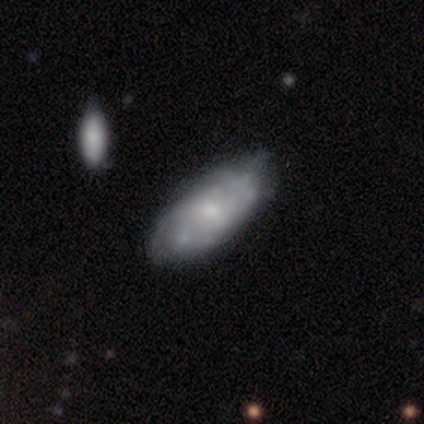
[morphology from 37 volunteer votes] Q: Smooth or featured?
A: featured or disk (57%); runner-up: smooth (43%)
Q: Edge-on disk?
A: no (86%); runner-up: yes (14%)
Q: Bar?
A: no (72%); runner-up: weak (28%)
Q: Spiral arms?
A: yes (61%); runner-up: no (39%)
Q: Spiral winding?
A: tight (45%); runner-up: medium (36%)
Q: Spiral arm count?
A: can't tell (64%); runner-up: 2 (18%)
Q: Bulge size?
A: small (44%); runner-up: moderate (33%)
Q: Merging?
A: none (65%); runner-up: minor disturbance (27%)